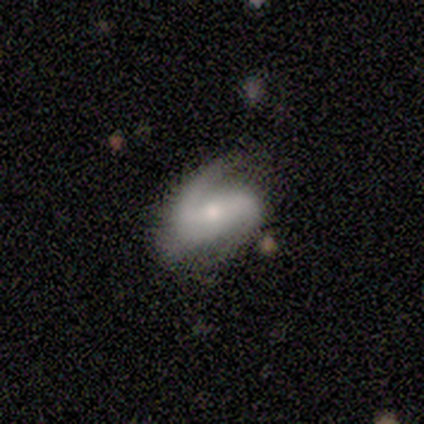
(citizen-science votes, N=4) Volunteers were most divided on "merging": none: 50%, minor disturbance: 25%, major disturbance: 25%, merger: 0%. More confident: smooth or featured — featured or disk (100%); edge-on disk — no (100%); spiral arms — yes (100%); bar — weak (75%); spiral winding — loose (75%); spiral arm count — 2 (75%); bulge size — small (75%).